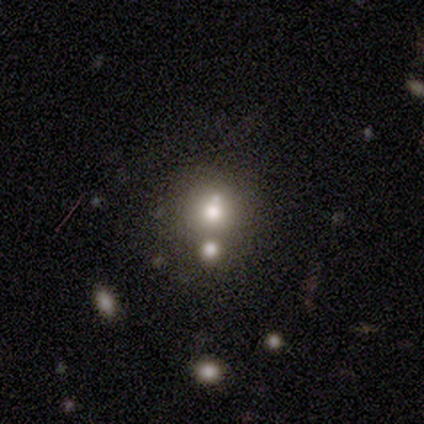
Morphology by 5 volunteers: Smooth or featured? star or artifact (60%)